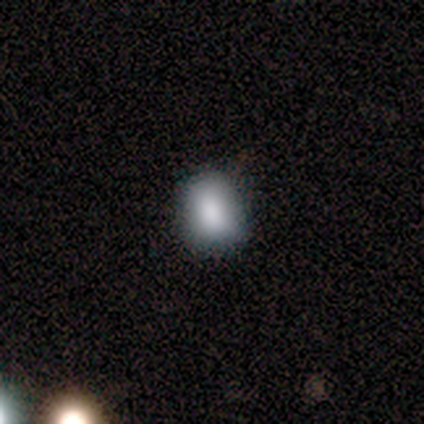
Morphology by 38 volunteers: Q: Smooth or featured?
A: smooth (79%); runner-up: star or artifact (16%)
Q: How rounded?
A: in between (60%); runner-up: round (40%)
Q: Merging?
A: none (75%); runner-up: minor disturbance (25%)